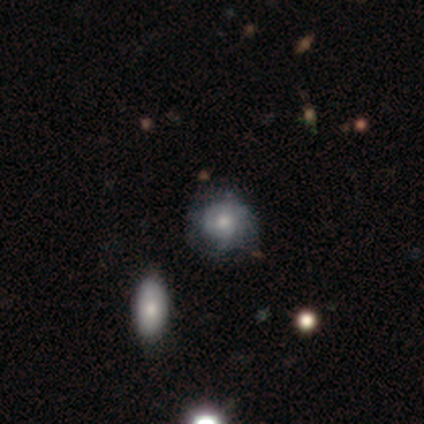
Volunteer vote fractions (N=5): A featured or disk galaxy (40%, tied with star or artifact) with no bar (100%), 1 (100%) tight (100%) spiral arms (50%, tied with no) and a small central bulge (100%). Merging: none (67%).